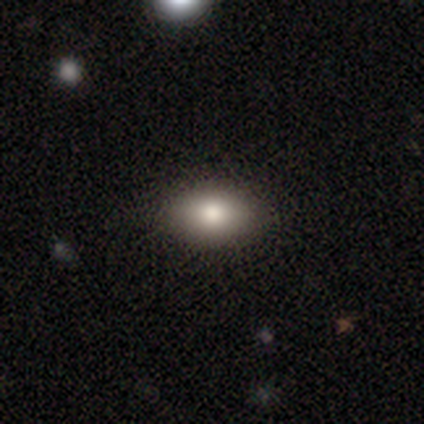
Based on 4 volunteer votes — Q: Smooth or featured?
A: smooth (75%); runner-up: featured or disk (25%)
Q: How rounded?
A: in between (67%); runner-up: round (33%)
Q: Merging?
A: none (100%)